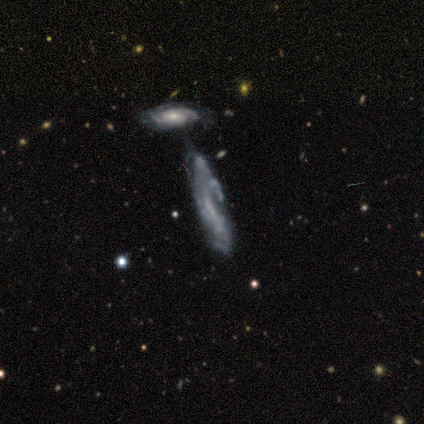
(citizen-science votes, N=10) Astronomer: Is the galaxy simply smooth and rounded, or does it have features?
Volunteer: featured or disk — 80%.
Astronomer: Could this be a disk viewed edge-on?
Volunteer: no — 75%.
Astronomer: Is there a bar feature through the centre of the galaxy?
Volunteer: no — 50% (runner-up: strong, 33%).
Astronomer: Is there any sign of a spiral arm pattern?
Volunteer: yes — 100%.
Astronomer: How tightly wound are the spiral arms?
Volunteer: tight — 67%.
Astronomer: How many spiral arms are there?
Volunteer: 3 — 50% (runner-up: can't tell, 33%).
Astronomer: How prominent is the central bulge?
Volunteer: none — 67%.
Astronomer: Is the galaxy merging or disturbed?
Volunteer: none — 56%.